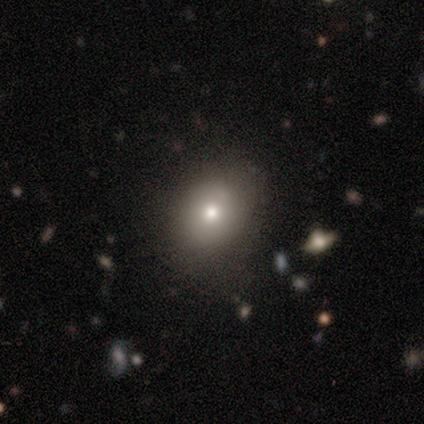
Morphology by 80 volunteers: This appears to be a smooth galaxy with no disk features (78%) that is in between round and cigar-shaped (68%). Merging: none (44%).